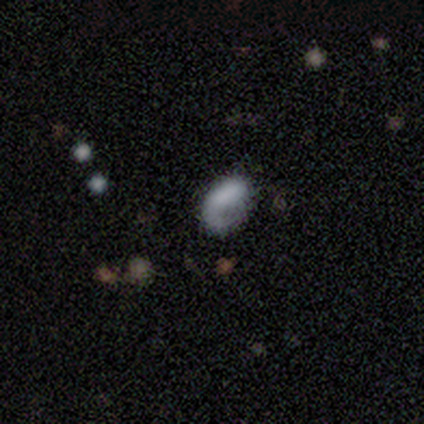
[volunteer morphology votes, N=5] Smooth or featured: smooth — 60% (featured or disk — 40%)
How rounded: in between — 100%
Merging: major disturbance — 60% (none — 20%)